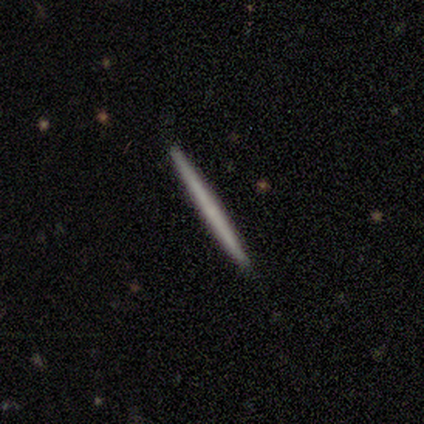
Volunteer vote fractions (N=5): smooth-or-featured: smooth: 60% | featured or disk: 40% | star or artifact: 0%
  how-rounded: cigar-shaped: 100% | round: 0% | in between: 0%
  merging: none: 100% | minor disturbance: 0% | major disturbance: 0% | merger: 0%